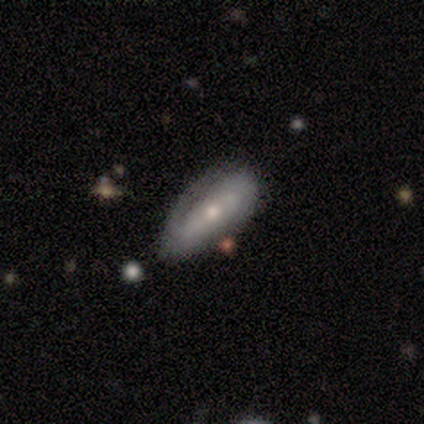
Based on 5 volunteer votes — Overall: featured or disk (80%). Edge-on disk: no (100%). Bar: no (50%; strong 25%). Spiral arms: yes (100%). Spiral arm count: can't tell (50%; 1 25%). Spiral winding: medium (50%; tight 25%). Bulge size: moderate (50%, tied with small). Merging: none (80%).